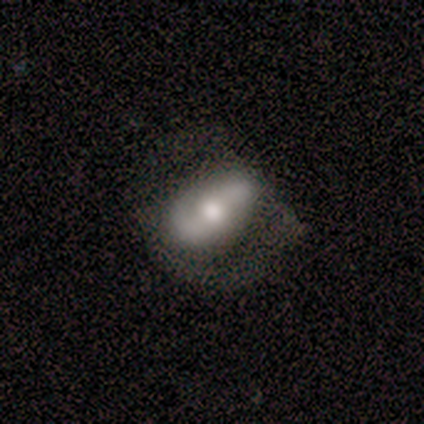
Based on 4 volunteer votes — This appears to be a featured or disk galaxy (100%) with a strong bar (50%, tied with no), 2 (100%) tight (33%, tied with medium and loose) spiral arms (75%) and a dominant central bulge (75%). Merging: none (50%).